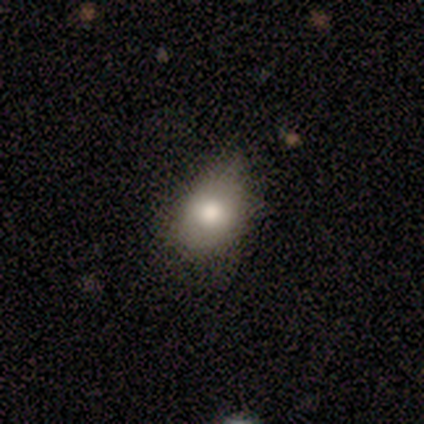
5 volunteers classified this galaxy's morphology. This is clearly a smooth galaxy (80%). How rounded: possibly round (50%, tied with in between). Merging: possibly none (50%, tied with minor disturbance).